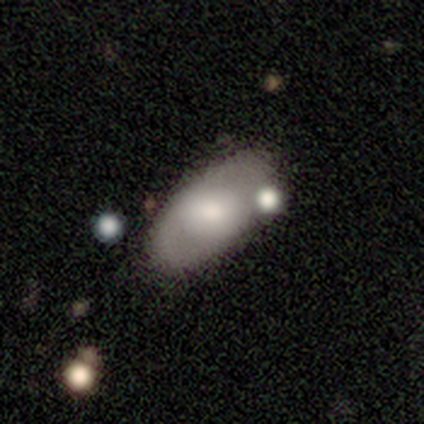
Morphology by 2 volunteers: Smooth or featured: smooth — 50% (tied with star or artifact — 50%)
How rounded: in between — 100%
Merging: none — 100%